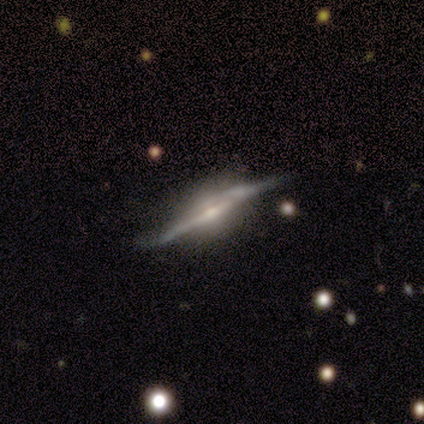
featured or disk 100%, smooth 0%, star or artifact 0%. Down the decision tree: edge-on disk — yes (100%); edge-on bulge — none (40%, tied with rounded); merging — minor disturbance (60%).